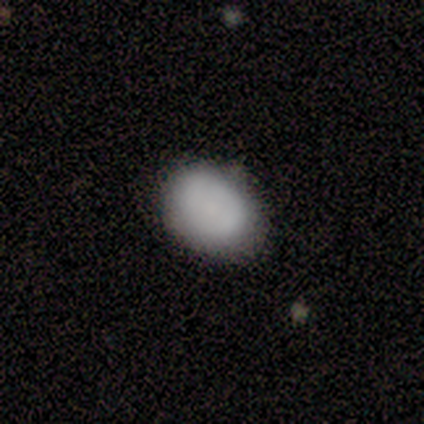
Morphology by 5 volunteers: Q: Smooth or featured?
A: smooth (100%)
Q: How rounded?
A: in between (100%)
Q: Merging?
A: none (100%)